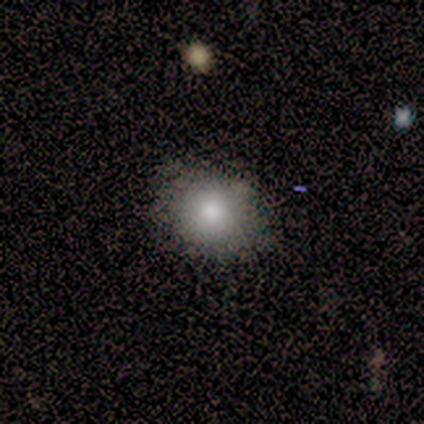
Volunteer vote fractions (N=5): smooth_or_featured: smooth (p=1.00)
how_rounded: in between (p=0.60) [alt: round p=0.40]
merging: none (p=0.80) [alt: minor disturbance p=0.20]